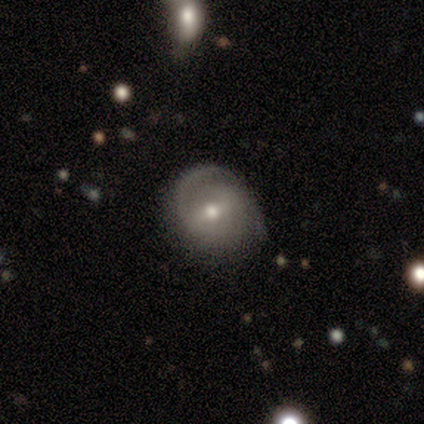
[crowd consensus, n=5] A featured or disk galaxy (100%) with no bar (60%), 1 (50%, tied with 2) loose (75%) spiral arms (80%) and a small central bulge (60%).

Vote fractions:
- Smooth or featured? featured or disk: 100% / smooth: 0% / star or artifact: 0%
- Edge-on disk? no: 100% / yes: 0%
- Bar? no: 60% / weak: 40% / strong: 0%
- Spiral arms? yes: 80% / no: 20%
- Spiral winding? loose: 75% / tight: 25% / medium: 0%
- Spiral arm count? 1: 50% (tied) / 2: 50% (tied) / 3: 0% / 4: 0% / more than 4: 0% / can't tell: 0%
- Bulge size? small: 60% / moderate: 40% / dominant: 0% / large: 0% / none: 0%
- Merging? none: 100% / minor disturbance: 0% / major disturbance: 0% / merger: 0%